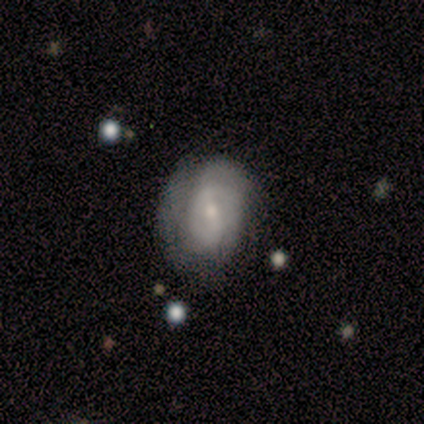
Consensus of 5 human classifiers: A smooth galaxy with no disk features (60%) that is round (67%).

Vote fractions:
- Smooth or featured? smooth: 60% / featured or disk: 40% / star or artifact: 0%
- How rounded? round: 67% / in between: 33% / cigar-shaped: 0%
- Merging? none: 80% / minor disturbance: 20% / major disturbance: 0% / merger: 0%